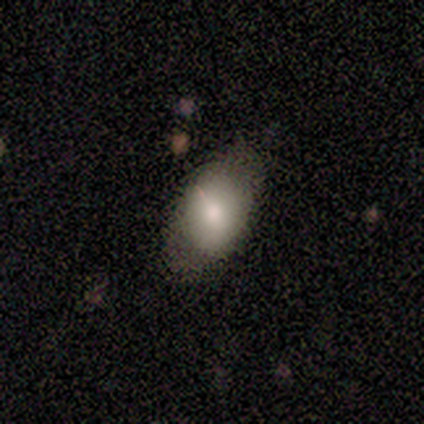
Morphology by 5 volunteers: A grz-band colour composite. It shows a smooth galaxy with no disk features (100%) that is in between round and cigar-shaped (80%). Merging: none (100%).